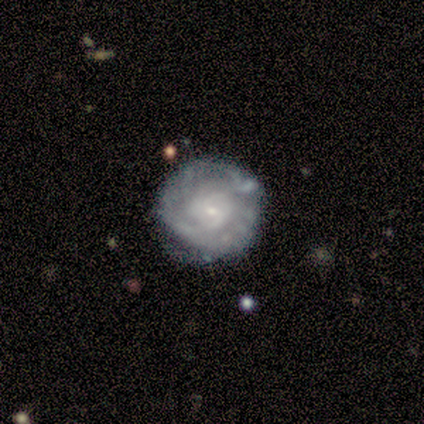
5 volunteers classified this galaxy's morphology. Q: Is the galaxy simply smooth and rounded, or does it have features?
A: featured or disk — 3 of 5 (60%).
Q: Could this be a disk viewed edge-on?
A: no — 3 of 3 (100%).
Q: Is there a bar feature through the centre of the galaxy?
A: no — 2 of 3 (67%).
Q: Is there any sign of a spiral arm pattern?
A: yes — 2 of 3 (67%).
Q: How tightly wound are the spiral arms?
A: tight — 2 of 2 (100%).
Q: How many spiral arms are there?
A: more than 4 — 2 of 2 (100%).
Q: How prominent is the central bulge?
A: small — 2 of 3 (67%).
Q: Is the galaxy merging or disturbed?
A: minor disturbance — 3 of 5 (60%).